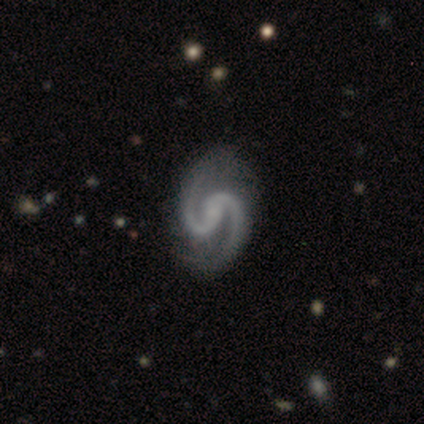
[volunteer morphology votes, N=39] Smooth or featured: featured or disk — 100%
Edge-on disk: no — 100%
Bar: weak — 44% (no — 38%)
Spiral arms: yes — 100%
Spiral winding: medium — 64% (loose — 23%)
Spiral arm count: 2 — 100%
Bulge size: small — 46% (none — 44%)
Merging: none — 49% (minor disturbance — 5%)